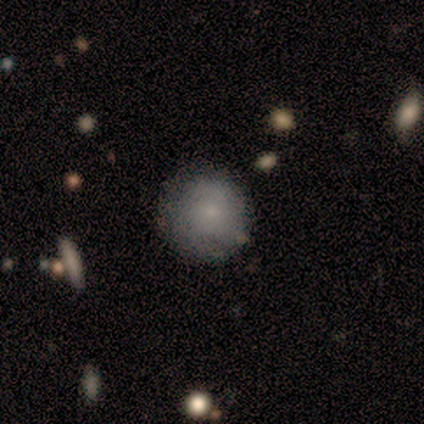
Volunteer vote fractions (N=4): Q: Smooth or featured?
A: smooth (100%)
Q: How rounded?
A: round (100%)
Q: Merging?
A: none (75%); runner-up: minor disturbance (25%)